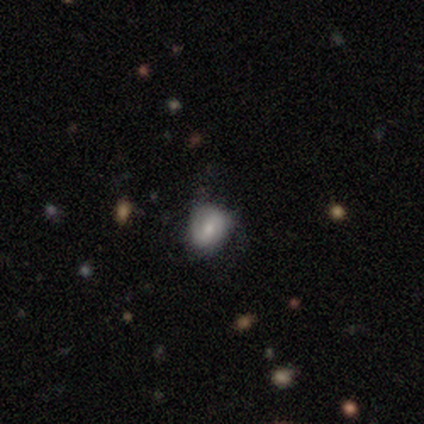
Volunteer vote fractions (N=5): Smooth or featured? smooth (80%)
How rounded? round (50%, tied with in between)
Merging? none (60%)